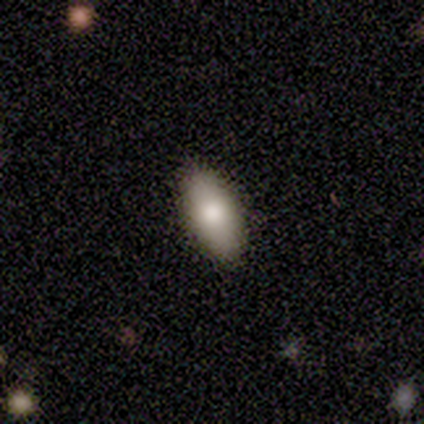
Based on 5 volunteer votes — A smooth galaxy with no disk features (80%) that is in between round and cigar-shaped (100%).

Vote fractions:
- Smooth or featured? smooth: 80% / featured or disk: 20% / star or artifact: 0%
- How rounded? in between: 100% / round: 0% / cigar-shaped: 0%
- Merging? none: 80% / minor disturbance: 20% / major disturbance: 0% / merger: 0%